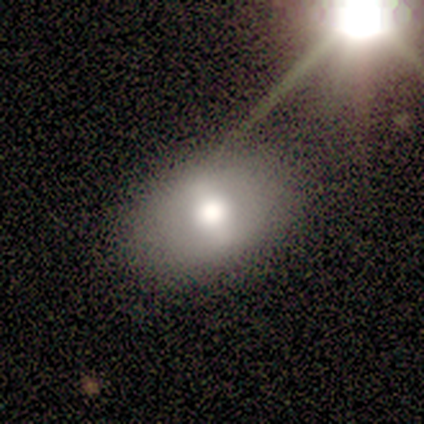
Overall: smooth (80%). How rounded: in between (75%). Merging: minor disturbance (60%; none 40%).